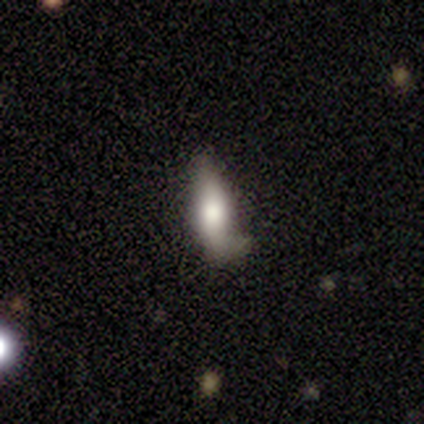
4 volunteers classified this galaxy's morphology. Q: Smooth or featured?
A: smooth (50%); runner-up: featured or disk (25%)
Q: How rounded?
A: in between (50%); tied with: cigar-shaped (50%)
Q: Merging?
A: none (67%); runner-up: minor disturbance (33%)